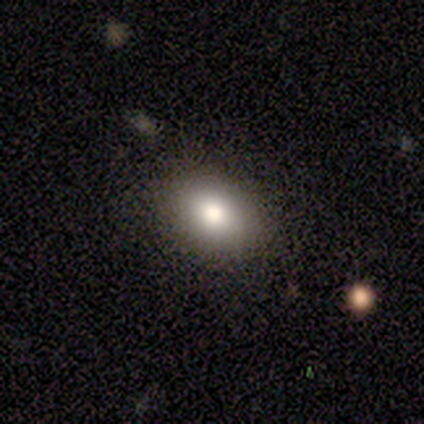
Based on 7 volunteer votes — A smooth galaxy with no disk features (100%) that is in between round and cigar-shaped (100%).

Vote fractions:
- Smooth or featured? smooth: 100% / featured or disk: 0% / star or artifact: 0%
- How rounded? in between: 100% / round: 0% / cigar-shaped: 0%
- Merging? none: 100% / minor disturbance: 0% / major disturbance: 0% / merger: 0%